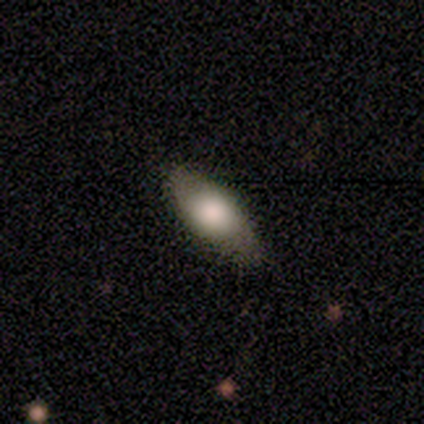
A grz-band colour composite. It shows a smooth galaxy with no disk features (100%) that is in between round and cigar-shaped (100%). Merging: none (100%).